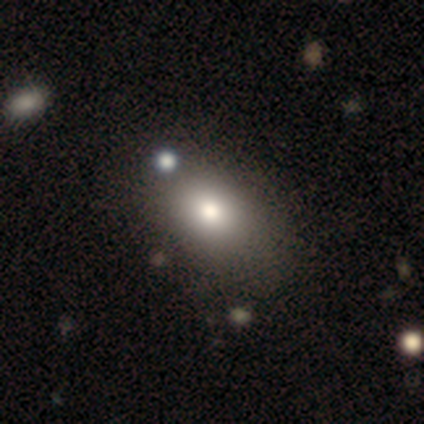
Smooth or featured: smooth — 60% (featured or disk — 40%)
How rounded: in between — 67% (round — 33%)
Merging: none — 100%